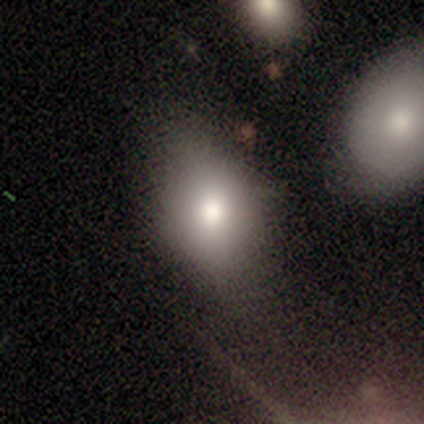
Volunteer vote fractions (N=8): This is likely a smooth galaxy (75%). How rounded: clearly in between (100%). Merging: likely none (71%).